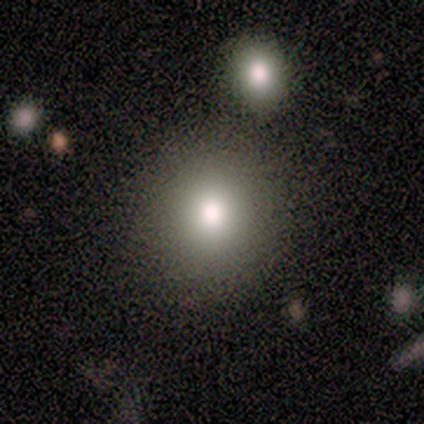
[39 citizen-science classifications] This appears to be a smooth galaxy with no disk features (87%) that is round (91%). Merging: none (86%).